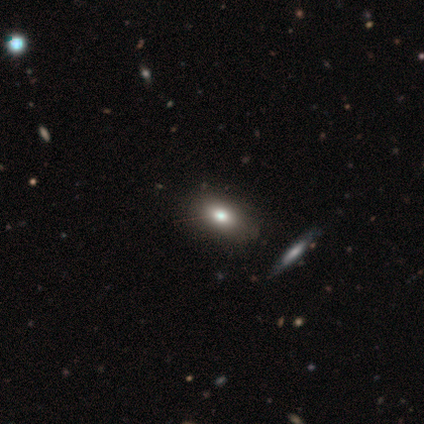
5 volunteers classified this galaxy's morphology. Q: Smooth or featured?
A: smooth (40%); tied with: featured or disk (40%)
Q: How rounded?
A: in between (100%)
Q: Merging?
A: none (75%); runner-up: minor disturbance (25%)